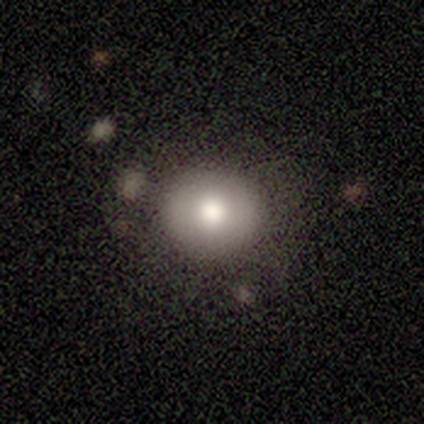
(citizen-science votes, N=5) smooth_or_featured: smooth (p=0.40) [tied with: star or artifact p=0.40]
how_rounded: round (p=1.00)
merging: none (p=0.67) [alt: major disturbance p=0.33]